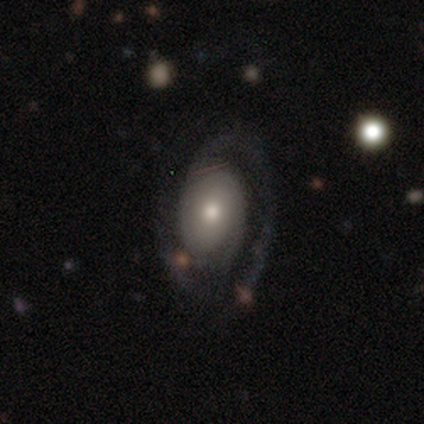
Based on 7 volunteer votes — Smooth or featured?
  - featured or disk: 86% *
  - star or artifact: 14%
  - smooth: 0%
Edge-on disk?
  - no: 83% *
  - yes: 17%
Bar?
  - no: 80% *
  - weak: 20%
  - strong: 0%
Spiral arms?
  - yes: 100% *
  - no: 0%
Spiral winding?
  - medium: 60% *
  - tight: 40%
  - loose: 0%
Spiral arm count?
  - 2: 80% *
  - can't tell: 20%
  - 1: 0%
  - 3: 0%
  - 4: 0%
  - more than 4: 0%
Bulge size?
  - moderate: 40% * (tied)
  - small: 40% * (tied)
  - dominant: 20%
  - large: 0%
  - none: 0%
Merging?
  - none: 67% *
  - minor disturbance: 33%
  - major disturbance: 0%
  - merger: 0%